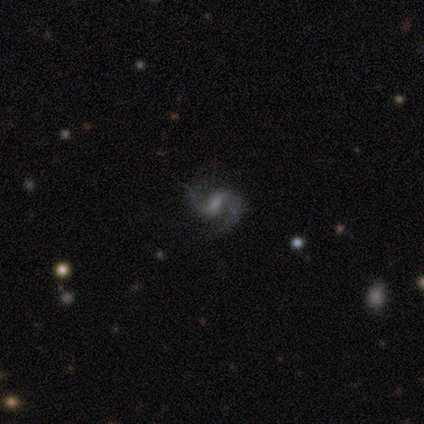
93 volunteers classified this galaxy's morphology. This appears to be a featured or disk galaxy (87%) with a weak bar (57%), 2 (91%) loose (54%) spiral arms (98%) and no central bulge (40%). Merging: none (67%).